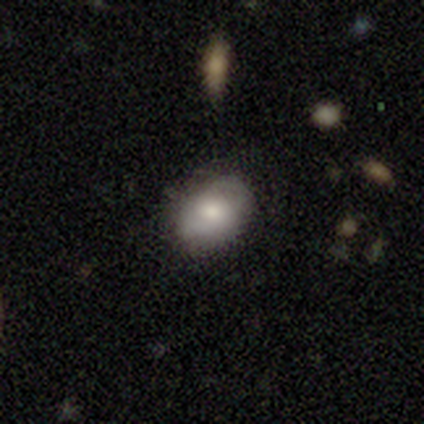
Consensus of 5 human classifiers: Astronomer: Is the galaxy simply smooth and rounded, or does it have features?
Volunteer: smooth — 80%.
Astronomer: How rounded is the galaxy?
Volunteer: in between — 100%.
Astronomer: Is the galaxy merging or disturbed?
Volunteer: none — 80%.